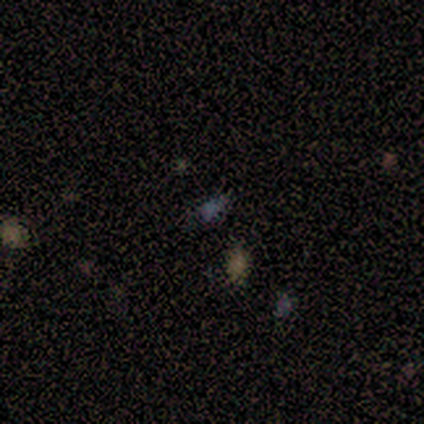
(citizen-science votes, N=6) This appears to be a smooth galaxy with no disk features (50%, tied with star or artifact) that is in between round and cigar-shaped (67%). Merging: none (100%).